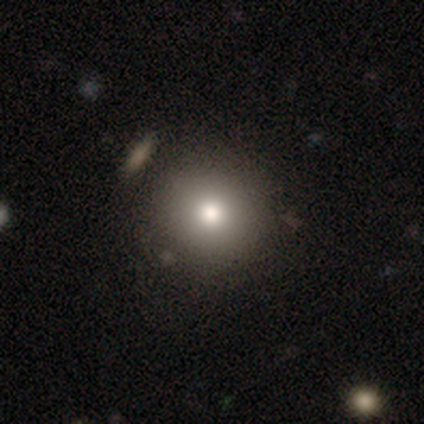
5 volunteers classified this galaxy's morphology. smooth 80%, star or artifact 20%, featured or disk 0%. Down the decision tree: how rounded — round (100%); merging — none (100%).